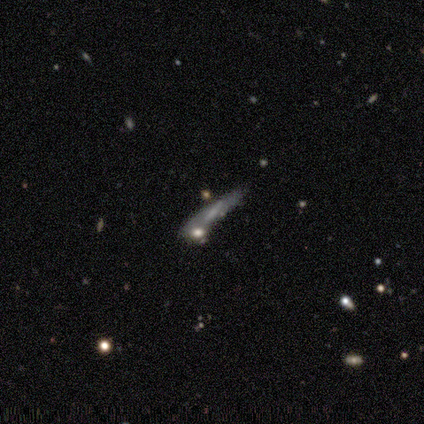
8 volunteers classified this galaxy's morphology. A featured or disk galaxy (75%) viewed edge-on (50%, tied with no) with a boxy central bulge (33%, tied with none and rounded).

Vote fractions:
- Smooth or featured? featured or disk: 75% / smooth: 12% / star or artifact: 12%
- Edge-on disk? yes: 50% (tied) / no: 50% (tied)
- Edge-on bulge? boxy: 33% (tied) / none: 33% (tied) / rounded: 33% (tied)
- Merging? none: 86% / minor disturbance: 14% / major disturbance: 0% / merger: 0%